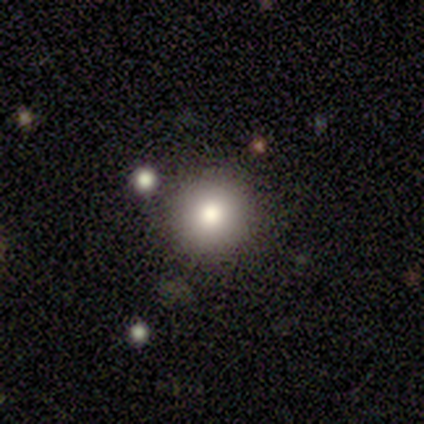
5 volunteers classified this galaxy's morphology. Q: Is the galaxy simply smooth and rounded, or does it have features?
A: smooth — 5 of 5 (100%).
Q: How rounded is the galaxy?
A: round — 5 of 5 (100%).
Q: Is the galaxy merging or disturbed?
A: none — 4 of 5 (80%).